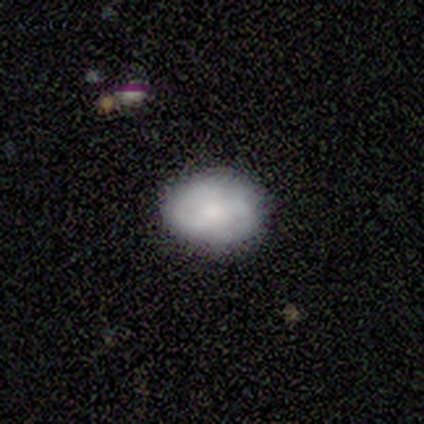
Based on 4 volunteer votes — Smooth or featured?
  - smooth: 50% * (tied)
  - featured or disk: 50% * (tied)
  - star or artifact: 0%
How rounded?
  - in between: 100% *
  - round: 0%
  - cigar-shaped: 0%
Merging?
  - none: 50% * (tied)
  - minor disturbance: 50% * (tied)
  - major disturbance: 0%
  - merger: 0%